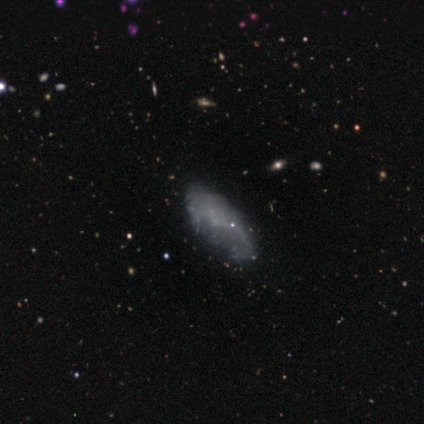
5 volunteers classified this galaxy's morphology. Smooth or featured? 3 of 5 (60%) said featured or disk. Edge-on disk? 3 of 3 (100%) said no. Bar? 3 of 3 (100%) said no. Spiral arms? 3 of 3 (100%) said no. Bulge size? 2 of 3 (67%) said none. Merging? 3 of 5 (60%) said none.